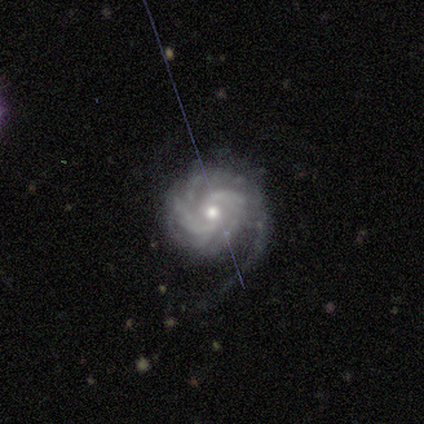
Morphology: type=featured or disk (95%); edge-on=no (100%); bar=no (75%); spiral arms=yes (97%); winding=tight (71%); arm count=more than 4 (29%); bulge=small (67%); merging=none (58%).